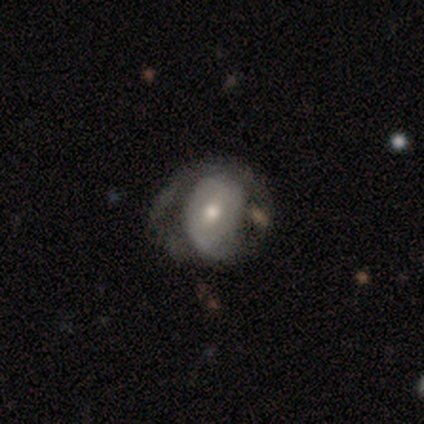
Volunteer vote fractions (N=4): A smooth galaxy with no disk features (50%, tied with featured or disk) that is round (50%, tied with in between).

Vote fractions:
- Smooth or featured? smooth: 50% (tied) / featured or disk: 50% (tied) / star or artifact: 0%
- How rounded? round: 50% (tied) / in between: 50% (tied) / cigar-shaped: 0%
- Merging? minor disturbance: 50% (tied) / major disturbance: 50% (tied) / none: 0% / merger: 0%